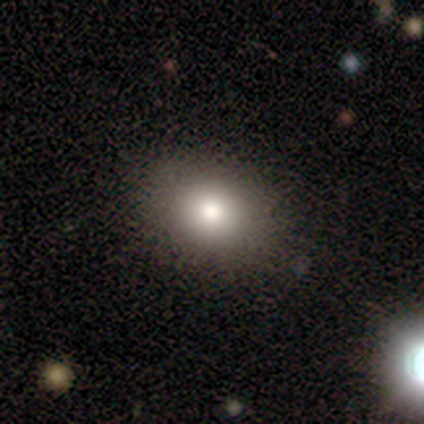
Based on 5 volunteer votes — This is clearly a smooth galaxy (100%). How rounded: likely round (60%). Merging: likely none (60%).